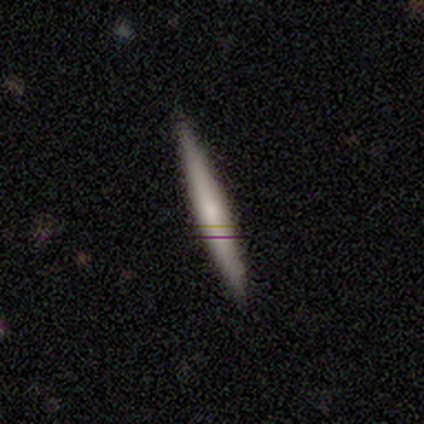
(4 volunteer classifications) A smooth galaxy with no disk features (75%) that is cigar-shaped (100%). Merging: none (75%).